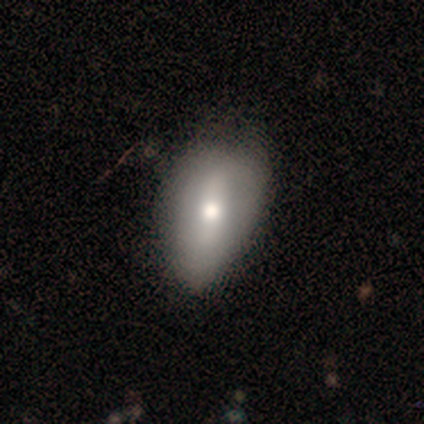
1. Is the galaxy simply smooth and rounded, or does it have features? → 60% smooth, 40% featured or disk, 0% star or artifact.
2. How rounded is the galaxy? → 100% in between, 0% round, 0% cigar-shaped.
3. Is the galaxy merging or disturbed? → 80% none, 20% minor disturbance, 0% major disturbance, 0% merger.